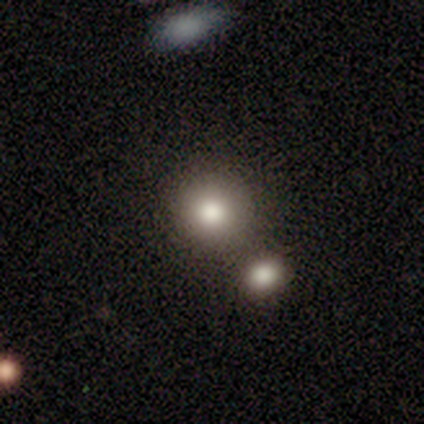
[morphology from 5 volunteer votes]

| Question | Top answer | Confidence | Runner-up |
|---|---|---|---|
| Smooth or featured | smooth | 60% | featured or disk (20%) |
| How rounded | round | 100% | — |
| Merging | none | 100% | — |